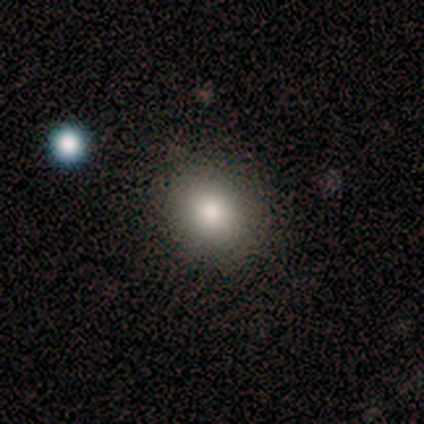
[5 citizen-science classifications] smooth 60%, featured or disk 20%, star or artifact 20%. Down the decision tree: how rounded — in between (67%); merging — none (100%).